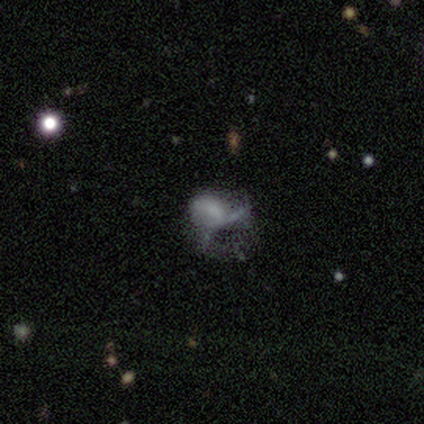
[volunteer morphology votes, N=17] smooth_or_featured: featured or disk (p=0.47) [alt: star or artifact p=0.29]
disk_edge_on: no (p=1.00)
bar: no (p=0.75) [alt: weak p=0.25]
has_spiral_arms: no (p=1.00)
bulge_size: none (p=0.62) [alt: large p=0.25]
merging: major disturbance (p=0.83) [alt: minor disturbance p=0.17]